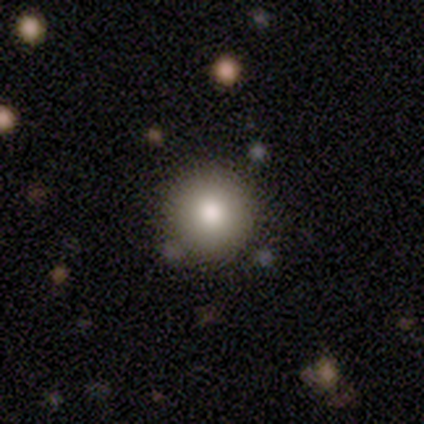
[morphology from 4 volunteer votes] Overall: smooth (100%). How rounded: round (100%). Merging: none (100%).